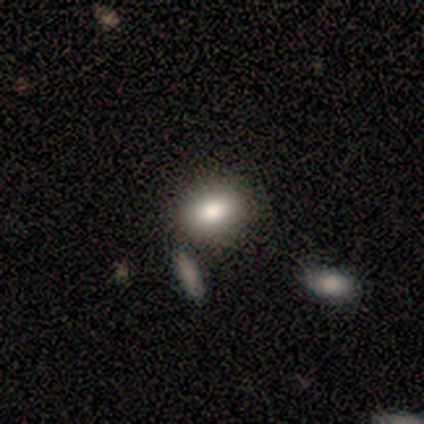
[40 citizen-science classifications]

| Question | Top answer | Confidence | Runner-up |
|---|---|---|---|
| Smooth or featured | smooth | 90% | star or artifact (8%) |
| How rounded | in between | 89% | round (8%) |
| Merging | none | 35% | merger (16%) |